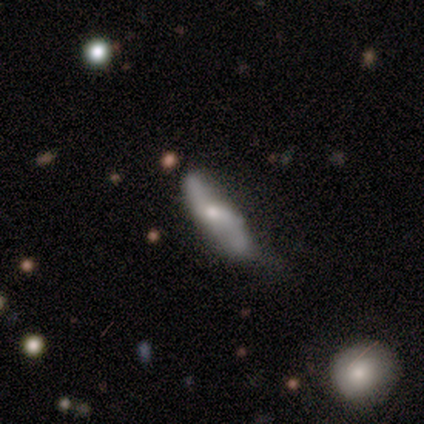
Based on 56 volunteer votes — smooth_or_featured: featured or disk (p=0.59) [alt: smooth p=0.30]
disk_edge_on: no (p=0.76) [alt: yes p=0.24]
bar: no (p=0.52) [alt: weak p=0.44]
has_spiral_arms: yes (p=0.72) [alt: no p=0.28]
spiral_winding: loose (p=0.94) [alt: medium p=0.06]
spiral_arm_count: 2 (p=0.83) [alt: can't tell p=0.17]
bulge_size: moderate (p=0.68) [alt: small p=0.28]
merging: none (p=0.44) [alt: minor disturbance p=0.28]